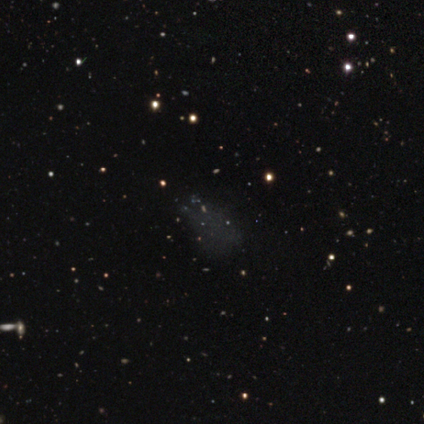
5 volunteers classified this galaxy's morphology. Smooth or featured? 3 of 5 (60%) said smooth. How rounded? 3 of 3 (100%) said in between. Merging? 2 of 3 (67%) said none.